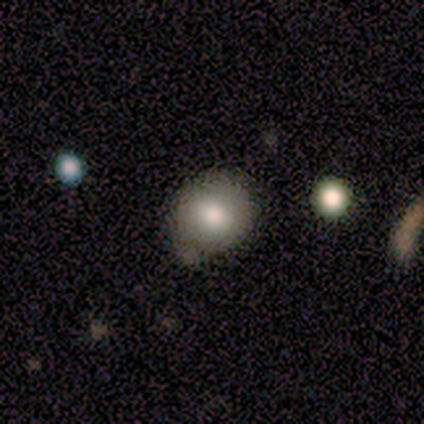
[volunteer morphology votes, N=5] type=smooth (100%); roundness=round (80%); merging=none (100%).